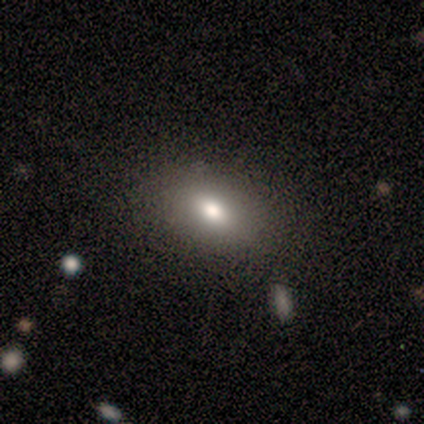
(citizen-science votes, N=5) Morphology: type=smooth (60%); roundness=in between (100%); merging=none (100%).